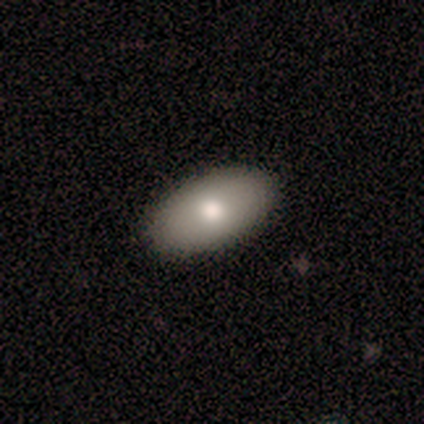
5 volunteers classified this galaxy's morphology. type=smooth (100%); roundness=in between (100%); merging=none (100%).